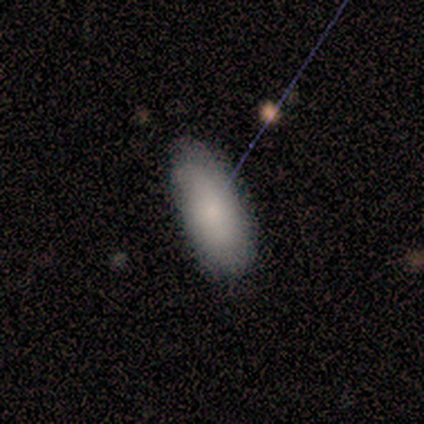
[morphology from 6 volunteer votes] Q: Smooth or featured?
A: smooth (100%)
Q: How rounded?
A: in between (83%); runner-up: cigar-shaped (17%)
Q: Merging?
A: none (67%); runner-up: minor disturbance (17%)